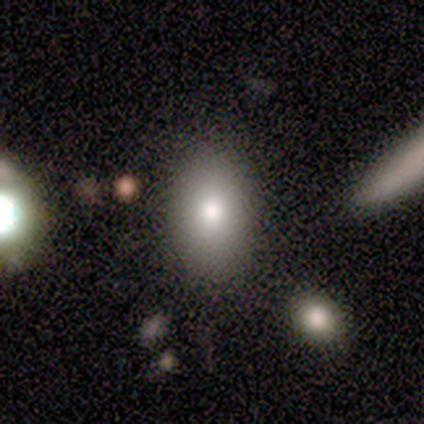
Smooth or featured: smooth — 50% (tied with featured or disk — 50%)
How rounded: in between — 100%
Merging: none — 100%